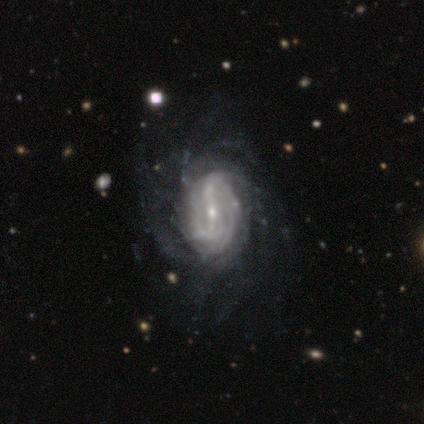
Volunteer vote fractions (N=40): This is clearly a featured or disk galaxy (95%). It is clearly not viewed edge-on (97%). Bar: possibly strong (51%). Spiral arm pattern: clearly yes (92%). Spiral arm count: possibly can't tell (53%). Spiral winding: possibly tight (47%). Central bulge: likely small (70%). Merging: possibly none (55%).